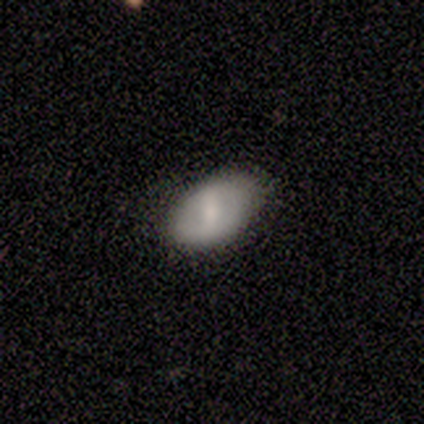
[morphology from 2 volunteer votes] This is possibly a smooth galaxy (50%, tied with featured or disk). How rounded: clearly in between (100%). Merging: possibly none (50%, tied with minor disturbance).